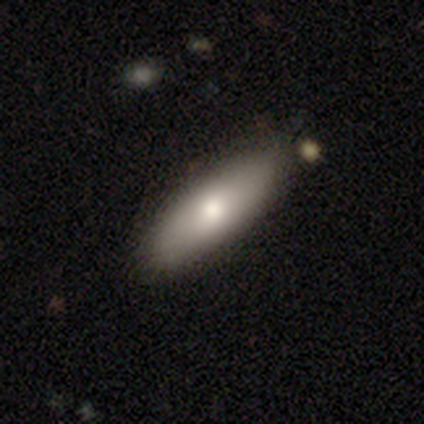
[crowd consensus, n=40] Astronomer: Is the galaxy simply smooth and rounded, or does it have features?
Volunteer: smooth — 68%.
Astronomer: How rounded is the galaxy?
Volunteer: in between — 67%.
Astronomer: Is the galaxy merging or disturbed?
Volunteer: none — 90%.